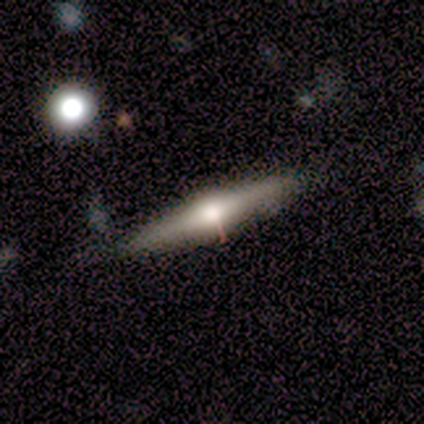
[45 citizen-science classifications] Q: Smooth or featured?
A: featured or disk (69%); runner-up: smooth (27%)
Q: Edge-on disk?
A: yes (100%)
Q: Edge-on bulge?
A: rounded (90%); runner-up: boxy (10%)
Q: Merging?
A: none (79%); runner-up: minor disturbance (21%)